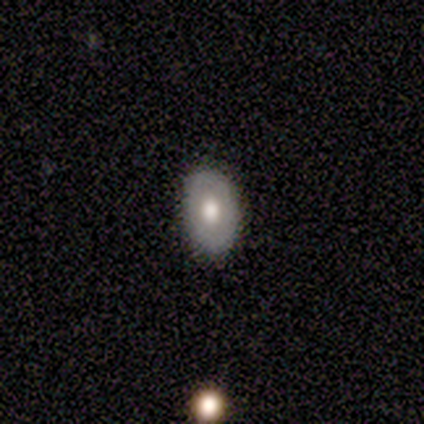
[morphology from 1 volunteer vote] Q: Smooth or featured?
A: smooth (100%)
Q: How rounded?
A: in between (100%)
Q: Merging?
A: none (100%)